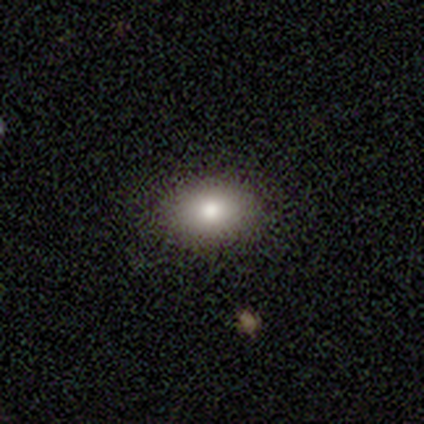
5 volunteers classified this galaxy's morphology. Smooth or featured?
  - smooth: 60% *
  - featured or disk: 40%
  - star or artifact: 0%
How rounded?
  - in between: 100% *
  - round: 0%
  - cigar-shaped: 0%
Merging?
  - none: 100% *
  - minor disturbance: 0%
  - major disturbance: 0%
  - merger: 0%